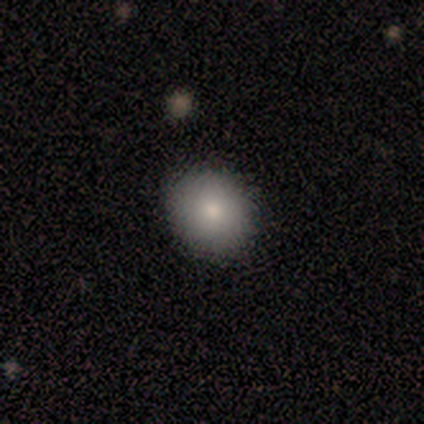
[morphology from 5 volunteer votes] Q: Smooth or featured?
A: smooth (40%); tied with: star or artifact (40%)
Q: How rounded?
A: round (100%)
Q: Merging?
A: none (100%)